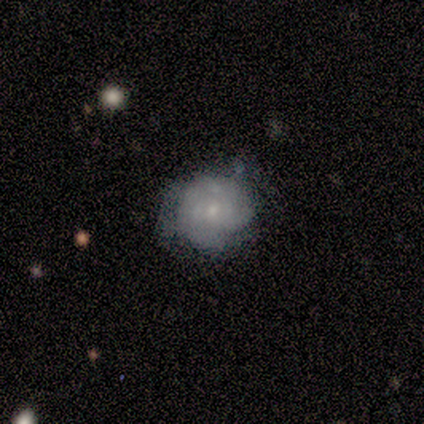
Volunteers were most divided on "bar": weak: 67%, no: 33%, strong: 0%. More confident: smooth or featured — featured or disk (100%); edge-on disk — no (100%); spiral arms — yes (100%); spiral winding — tight (67%); spiral arm count — can't tell (67%); bulge size — small (67%); merging — none (67%).